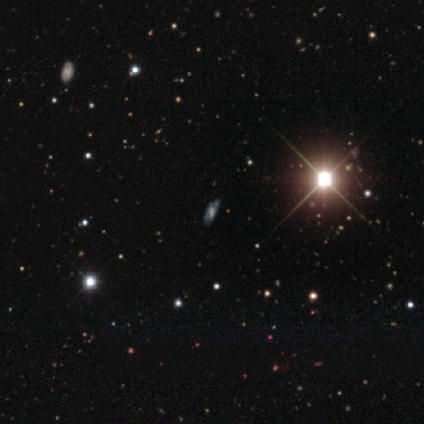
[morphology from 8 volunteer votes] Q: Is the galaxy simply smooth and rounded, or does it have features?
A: star or artifact — 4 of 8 (50%).